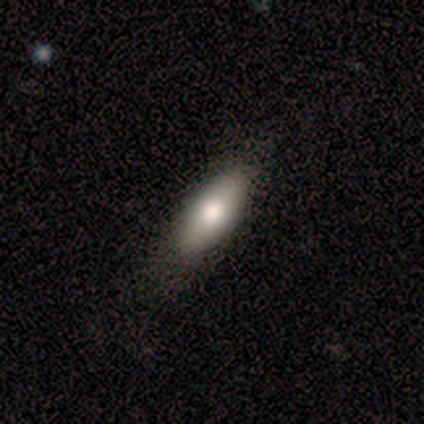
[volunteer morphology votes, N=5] Smooth or featured?
  - smooth: 60% *
  - featured or disk: 20%
  - star or artifact: 20%
How rounded?
  - in between: 67% *
  - cigar-shaped: 33%
  - round: 0%
Merging?
  - none: 100% *
  - minor disturbance: 0%
  - major disturbance: 0%
  - merger: 0%